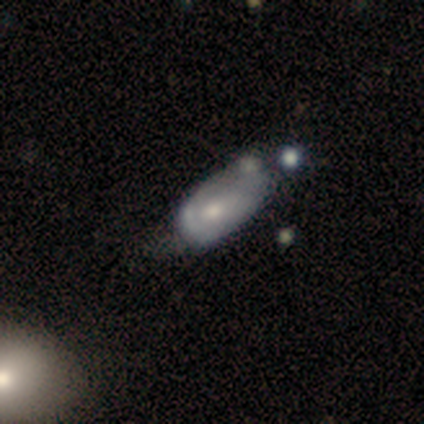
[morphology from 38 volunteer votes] Overall: featured or disk (55%; smooth 37%). Edge-on disk: no (100%). Bar: no (81%). Spiral arms: no (52%; yes 48%). Bulge size: moderate (52%; small 38%). Merging: minor disturbance (34%; major disturbance 29%).